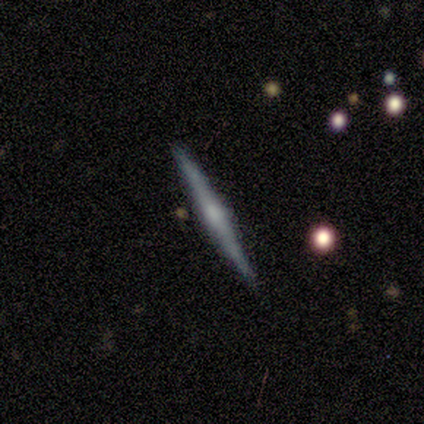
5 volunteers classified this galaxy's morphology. Q: Smooth or featured?
A: featured or disk (60%); runner-up: smooth (40%)
Q: Edge-on disk?
A: yes (100%)
Q: Edge-on bulge?
A: rounded (67%); runner-up: none (33%)
Q: Merging?
A: none (100%)